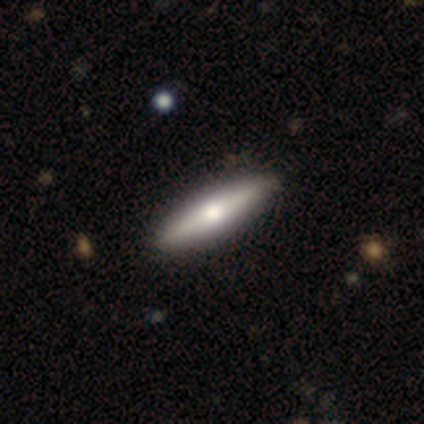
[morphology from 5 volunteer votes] Smooth or featured?
  - smooth: 60% *
  - featured or disk: 40%
  - star or artifact: 0%
How rounded?
  - cigar-shaped: 100% *
  - round: 0%
  - in between: 0%
Merging?
  - none: 100% *
  - minor disturbance: 0%
  - major disturbance: 0%
  - merger: 0%